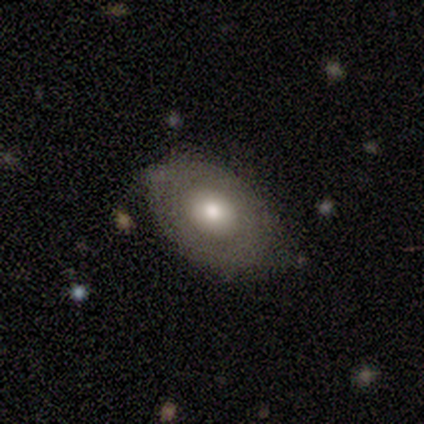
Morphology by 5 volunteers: Smooth or featured?
  - smooth: 80% *
  - featured or disk: 20%
  - star or artifact: 0%
How rounded?
  - in between: 75% *
  - round: 25%
  - cigar-shaped: 0%
Merging?
  - none: 60% *
  - minor disturbance: 20%
  - major disturbance: 20%
  - merger: 0%